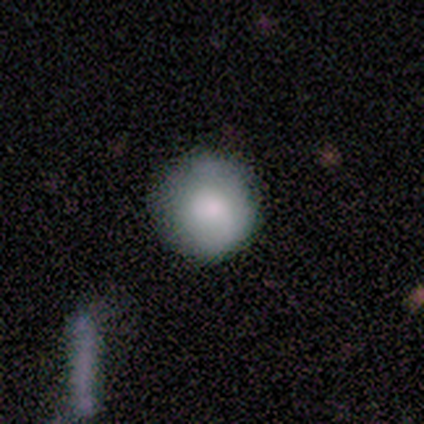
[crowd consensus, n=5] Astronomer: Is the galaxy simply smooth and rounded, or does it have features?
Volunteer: smooth — 100%.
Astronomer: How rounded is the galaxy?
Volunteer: round — 100%.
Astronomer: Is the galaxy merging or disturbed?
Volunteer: none — 60%.